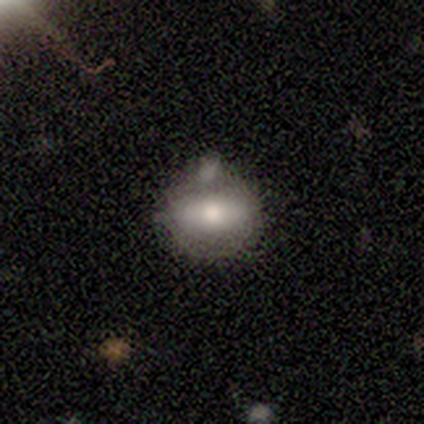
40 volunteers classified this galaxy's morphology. Smooth or featured? 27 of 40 (68%) said smooth. How rounded? 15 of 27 (56%) said in between. Merging? 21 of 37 (57%) said none.